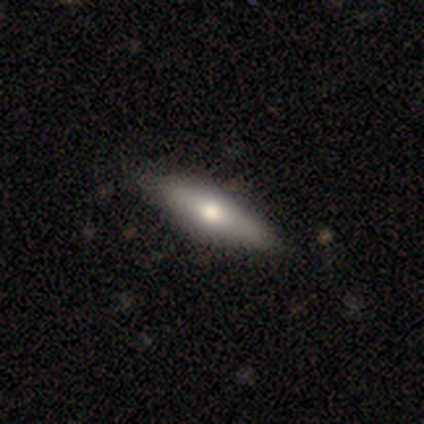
Q: Smooth or featured?
A: smooth (60%); runner-up: featured or disk (40%)
Q: How rounded?
A: in between (67%); runner-up: cigar-shaped (33%)
Q: Merging?
A: none (100%)